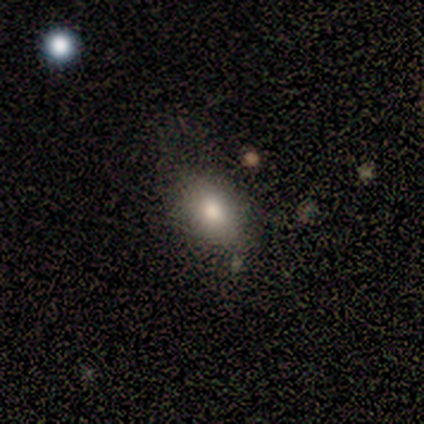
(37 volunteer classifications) Smooth or featured? smooth (81%)
How rounded? in between (80%)
Merging? none (64%)